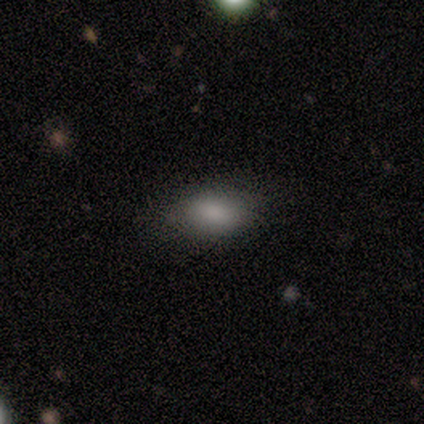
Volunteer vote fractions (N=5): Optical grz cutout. It shows a smooth galaxy with no disk features (100%) that is in between round and cigar-shaped (80%). Merging: none (100%).